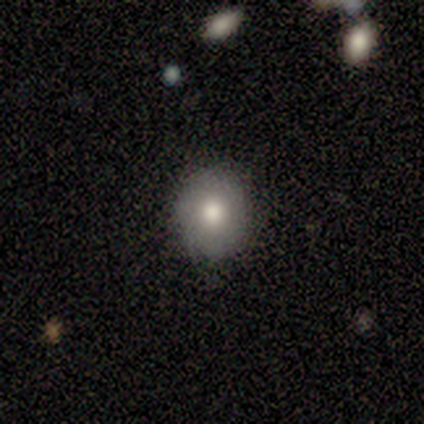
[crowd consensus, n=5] Volunteers were most divided on "smooth or featured" (2-way tie): smooth: 40%, featured or disk: 40%, star or artifact: 20%. More confident: how rounded — round (100%); merging — none (75%).